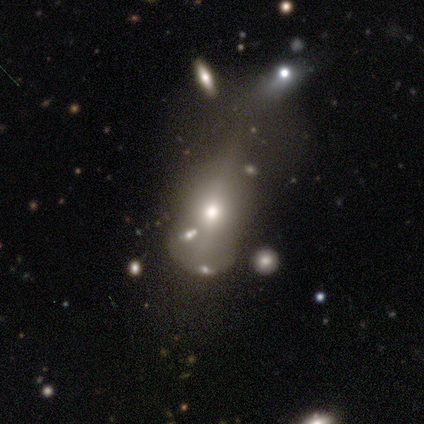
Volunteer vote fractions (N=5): Smooth or featured? smooth (60%)
How rounded? in between (67%)
Merging? major disturbance (50%)